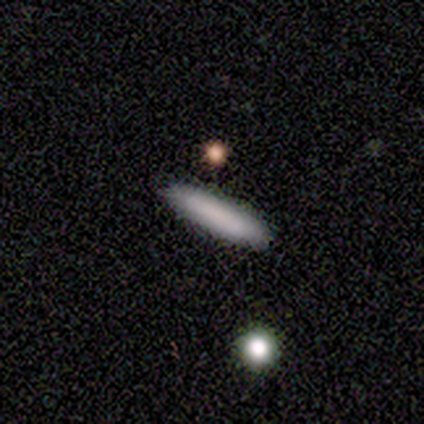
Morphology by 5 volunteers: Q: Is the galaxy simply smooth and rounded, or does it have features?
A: smooth — 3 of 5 (60%).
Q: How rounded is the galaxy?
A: cigar-shaped — 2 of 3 (67%).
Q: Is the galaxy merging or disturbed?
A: none — 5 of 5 (100%).